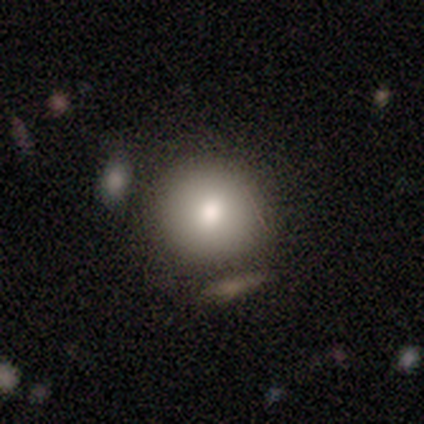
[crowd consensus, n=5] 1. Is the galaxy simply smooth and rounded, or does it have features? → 80% smooth, 20% featured or disk, 0% star or artifact.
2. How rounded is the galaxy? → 100% round, 0% in between, 0% cigar-shaped.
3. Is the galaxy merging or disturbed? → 60% none, 20% minor disturbance, 20% merger, 0% major disturbance.